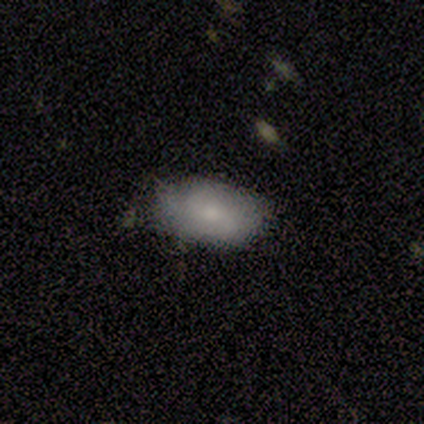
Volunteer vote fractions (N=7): Q: Smooth or featured?
A: smooth (86%); runner-up: featured or disk (14%)
Q: How rounded?
A: in between (100%)
Q: Merging?
A: none (100%)